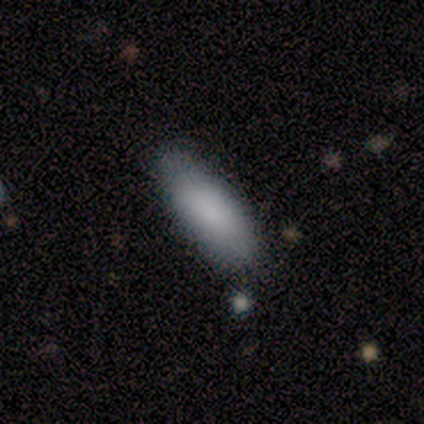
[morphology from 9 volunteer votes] Overall: smooth (78%). How rounded: in between (86%). Merging: none (56%; minor disturbance 33%).